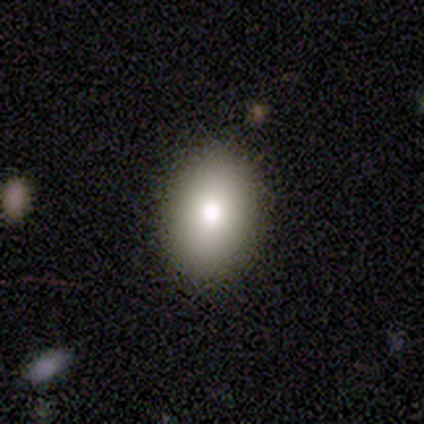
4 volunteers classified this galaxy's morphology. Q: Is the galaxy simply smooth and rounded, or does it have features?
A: smooth — 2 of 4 (50%).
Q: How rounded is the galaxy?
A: in between — 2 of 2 (100%).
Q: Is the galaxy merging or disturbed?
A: none — 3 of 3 (100%).